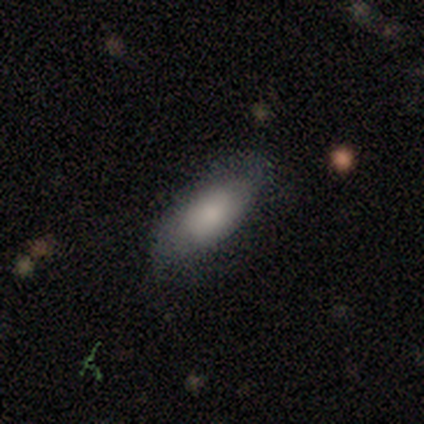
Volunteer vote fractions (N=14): smooth_or_featured: smooth (p=0.64) [alt: featured or disk p=0.36]
how_rounded: in between (p=0.78) [alt: round p=0.11]
merging: none (p=0.79) [alt: minor disturbance p=0.14]